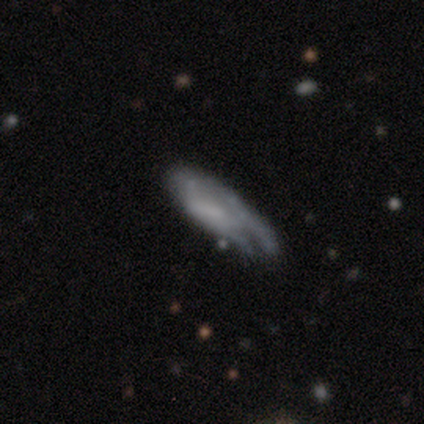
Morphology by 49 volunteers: Overall: featured or disk (47%; smooth 43%). Edge-on disk: no (78%). Bar: no (67%; weak 28%). Spiral arms: no (56%; yes 44%). Bulge size: none (78%). Merging: minor disturbance (39%; none 36%).